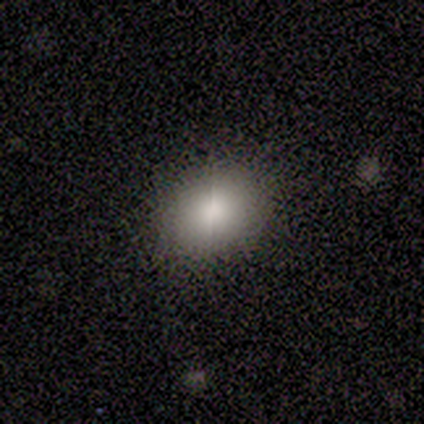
A smooth galaxy with no disk features (100%) that is in between round and cigar-shaped (60%). Merging: none (100%).